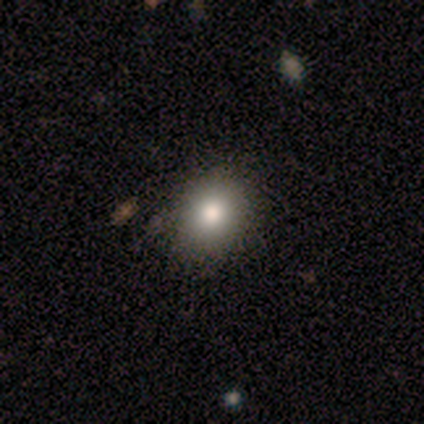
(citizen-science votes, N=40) Q: Smooth or featured?
A: smooth (78%); runner-up: featured or disk (12%)
Q: How rounded?
A: round (55%); runner-up: in between (45%)
Q: Merging?
A: none (58%); runner-up: minor disturbance (8%)